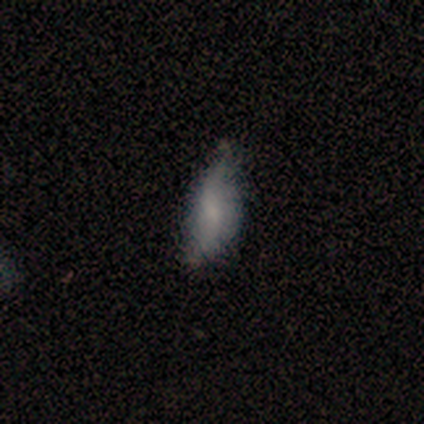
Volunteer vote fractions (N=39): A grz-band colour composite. It shows a smooth galaxy with no disk features (46%) that is in between round and cigar-shaped (72%). Merging: minor disturbance (44%).